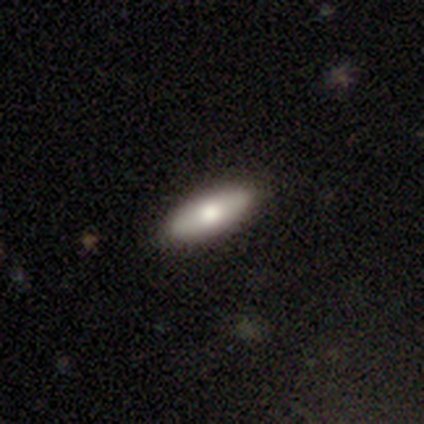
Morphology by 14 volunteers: smooth-or-featured: smooth: 86% | featured or disk: 7% | star or artifact: 7%
  how-rounded: in between: 83% | round: 8% | cigar-shaped: 8%
  merging: none: 85% | minor disturbance: 15% | major disturbance: 0% | merger: 0%